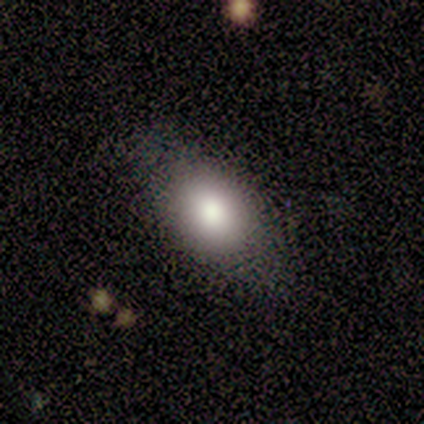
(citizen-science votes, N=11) Overall: smooth (100%). How rounded: in between (82%). Merging: none (91%).